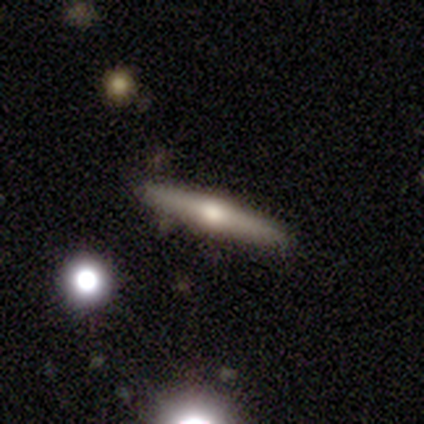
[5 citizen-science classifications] smooth_or_featured: featured or disk (p=0.60) [alt: star or artifact p=0.40]
disk_edge_on: yes (p=1.00)
edge_on_bulge: rounded (p=1.00)
merging: none (p=0.67) [alt: major disturbance p=0.33]